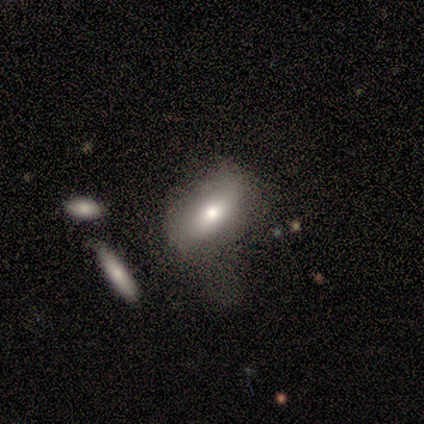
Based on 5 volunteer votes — smooth 80%, featured or disk 20%, star or artifact 0%. Down the decision tree: how rounded — in between (75%); merging — none (40%, tied with major disturbance).